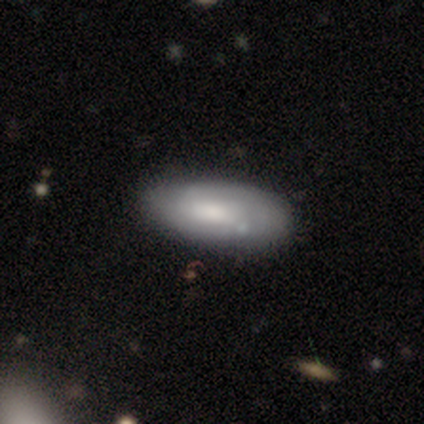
Volunteers were most divided on "spiral arms" (2-way tie): yes: 50%, no: 50%; "spiral winding" (2-way tie): tight: 50%, medium: 50%, loose: 0%. Remaining: edge-on disk — no (89%); merging — none (71%); bulge size — moderate (56%); bar — no (50%); spiral arm count — can't tell (50%); smooth or featured — featured or disk (46%).